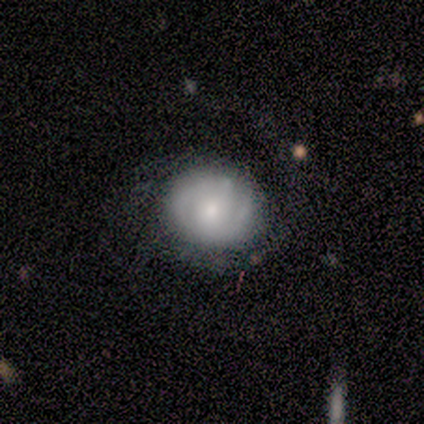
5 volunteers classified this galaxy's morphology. Overall: smooth (60%; featured or disk 40%). How rounded: round (67%; in between 33%). Merging: none (80%).